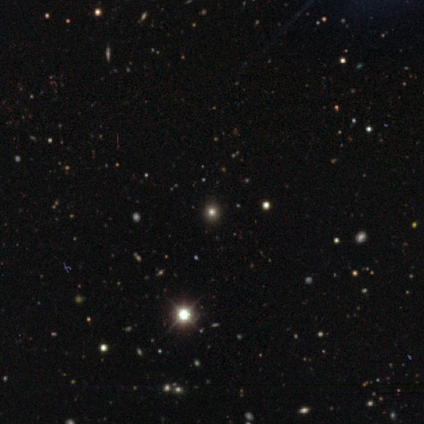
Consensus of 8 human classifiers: Overall: star or artifact (50%; smooth 38%).